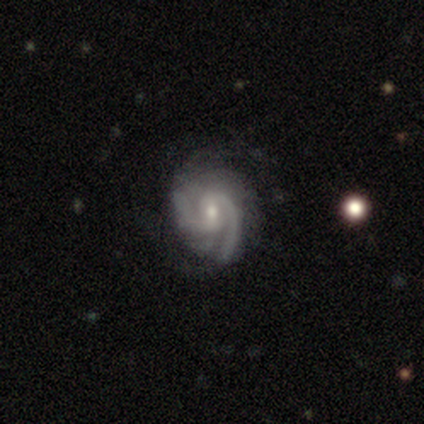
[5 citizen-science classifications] Overall: featured or disk (80%). Edge-on disk: no (100%). Bar: weak (75%). Spiral arms: yes (100%). Spiral arm count: 2 (75%). Spiral winding: medium (75%). Bulge size: small (75%). Merging: none (60%; minor disturbance 40%).